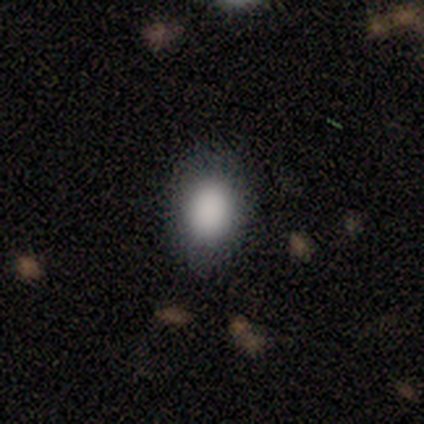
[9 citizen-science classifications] A smooth galaxy with no disk features (100%) that is in between round and cigar-shaped (100%).

Vote fractions:
- Smooth or featured? smooth: 100% / featured or disk: 0% / star or artifact: 0%
- How rounded? in between: 100% / round: 0% / cigar-shaped: 0%
- Merging? none: 78% / minor disturbance: 22% / major disturbance: 0% / merger: 0%